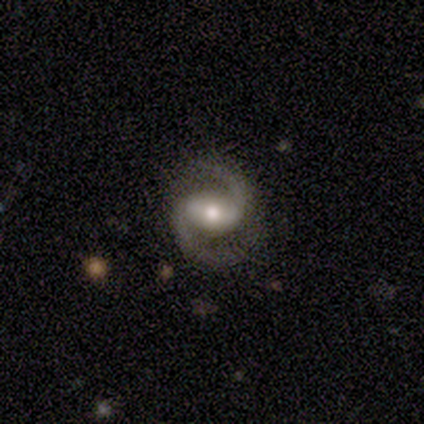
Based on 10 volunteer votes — This is clearly a featured or disk galaxy (100%). It is clearly not viewed edge-on (100%). Bar: possibly strong (50%, tied with weak). Spiral arm pattern: clearly yes (100%). Spiral arm count: clearly 2 (100%). Spiral winding: likely medium (60%). Central bulge: clearly moderate (80%). Merging: clearly none (100%).